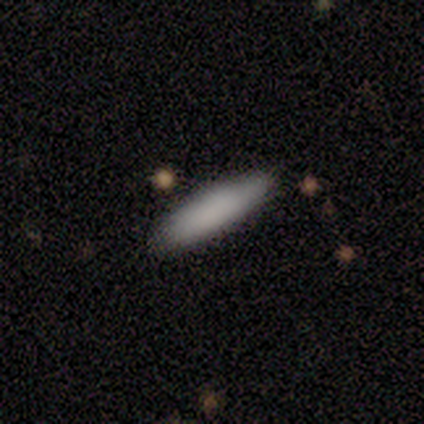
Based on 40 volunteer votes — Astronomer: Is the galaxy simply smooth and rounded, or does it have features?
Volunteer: smooth — 85%.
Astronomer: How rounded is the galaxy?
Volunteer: cigar-shaped — 79%.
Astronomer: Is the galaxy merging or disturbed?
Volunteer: none — 69%.